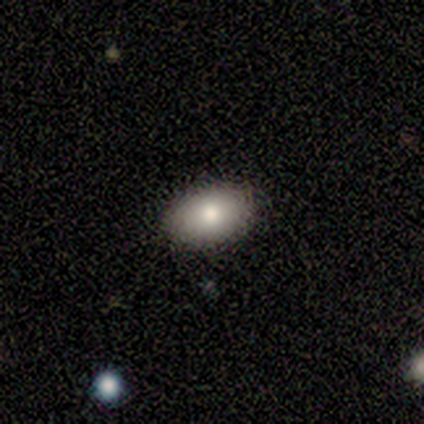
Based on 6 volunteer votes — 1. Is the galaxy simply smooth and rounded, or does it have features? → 100% smooth, 0% featured or disk, 0% star or artifact.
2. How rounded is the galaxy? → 83% in between, 17% round, 0% cigar-shaped.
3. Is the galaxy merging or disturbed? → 83% none, 17% minor disturbance, 0% major disturbance, 0% merger.